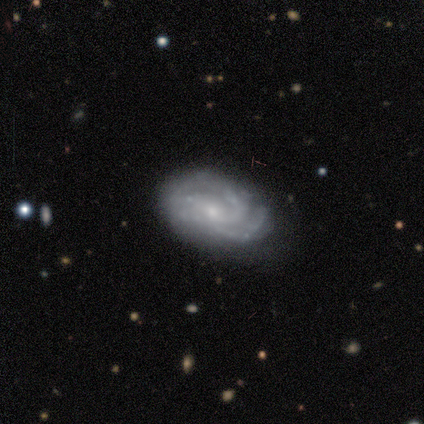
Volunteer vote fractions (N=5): A featured or disk galaxy (100%) with no bar (80%), tight (80%) spiral arms (100%) and a small central bulge (100%). Merging: none (80%).